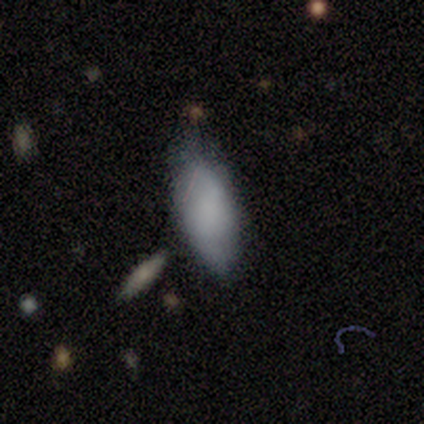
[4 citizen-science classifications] Morphology: type=smooth (75%); roundness=in between (100%); merging=none (100%).